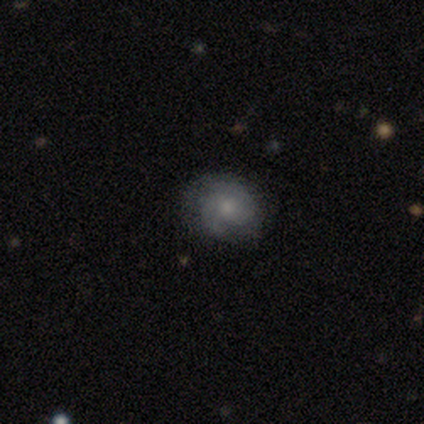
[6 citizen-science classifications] Q: Smooth or featured?
A: featured or disk (83%); runner-up: smooth (17%)
Q: Edge-on disk?
A: no (100%)
Q: Bar?
A: no (80%); runner-up: weak (20%)
Q: Spiral arms?
A: yes (100%)
Q: Spiral winding?
A: tight (60%); runner-up: loose (40%)
Q: Spiral arm count?
A: 2 (80%); runner-up: 3 (20%)
Q: Bulge size?
A: small (60%); runner-up: moderate (40%)
Q: Merging?
A: none (67%); runner-up: minor disturbance (33%)